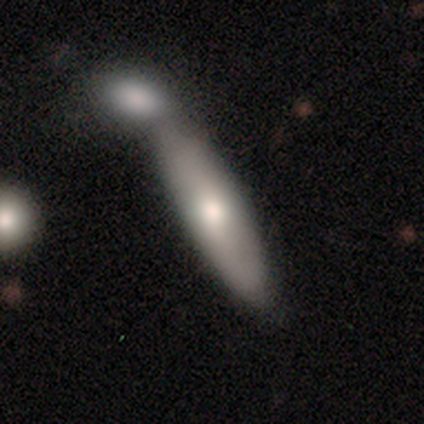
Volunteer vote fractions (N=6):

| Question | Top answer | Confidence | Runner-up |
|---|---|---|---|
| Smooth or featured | featured or disk | 50% | smooth (33%) |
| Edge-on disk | yes | 100% | — |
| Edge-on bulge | rounded | 100% | — |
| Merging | major disturbance | 40% | none (20%) |